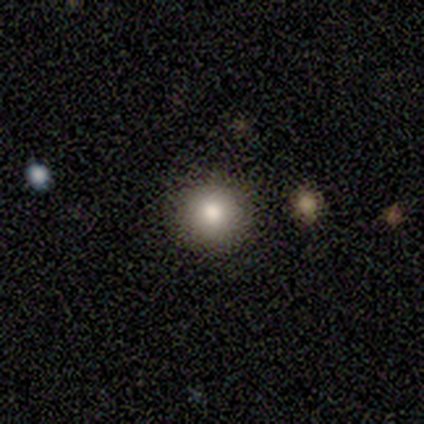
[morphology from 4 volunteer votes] A smooth galaxy with no disk features (100%) that is round (100%).

Vote fractions:
- Smooth or featured? smooth: 100% / featured or disk: 0% / star or artifact: 0%
- How rounded? round: 100% / in between: 0% / cigar-shaped: 0%
- Merging? none: 75% / merger: 25% / minor disturbance: 0% / major disturbance: 0%